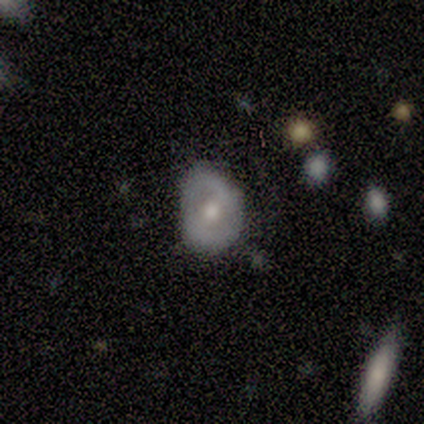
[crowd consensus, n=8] This is likely a featured or disk galaxy (75%). It is clearly not viewed edge-on (100%). Bar: likely no (67%). Spiral arm pattern: likely yes (67%). Spiral arm count: likely 2 (75%). Spiral winding: likely medium (75%). Central bulge: clearly moderate (83%). Merging: likely none (71%).